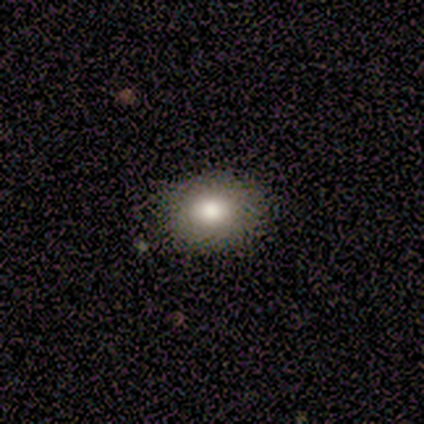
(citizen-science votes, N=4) A smooth galaxy with no disk features (100%) that is round (50%, tied with in between).

Vote fractions:
- Smooth or featured? smooth: 100% / featured or disk: 0% / star or artifact: 0%
- How rounded? round: 50% (tied) / in between: 50% (tied) / cigar-shaped: 0%
- Merging? none: 100% / minor disturbance: 0% / major disturbance: 0% / merger: 0%